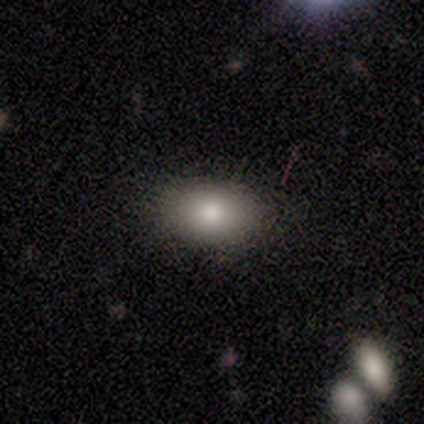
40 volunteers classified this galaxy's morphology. smooth-or-featured: smooth: 82% | featured or disk: 12% | star or artifact: 5%
  how-rounded: in between: 88% | round: 12% | cigar-shaped: 0%
  merging: none: 79% | minor disturbance: 8% | major disturbance: 8% | merger: 5%